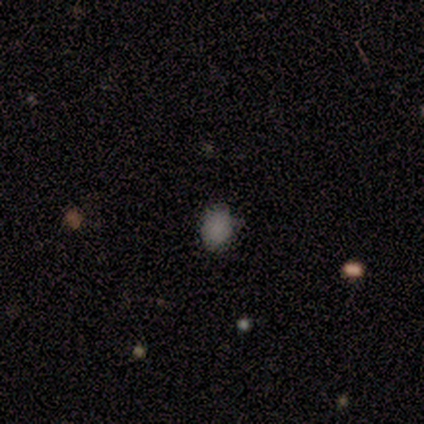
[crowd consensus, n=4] A smooth galaxy with no disk features (100%) that is round (50%, tied with in between). Merging: none (75%).